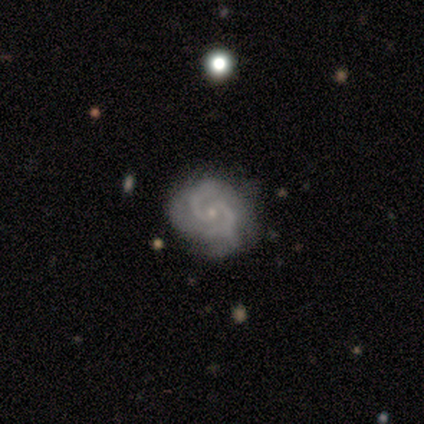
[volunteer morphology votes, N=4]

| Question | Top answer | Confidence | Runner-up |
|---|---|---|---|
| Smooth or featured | featured or disk | 75% | smooth (25%) |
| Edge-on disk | no | 100% | — |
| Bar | strong | 33% | tied: weak (33%), no (33%) |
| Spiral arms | yes | 100% | — |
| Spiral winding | medium | 67% | tight (33%) |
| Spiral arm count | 2 | 67% | 3 (33%) |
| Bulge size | moderate | 67% | small (33%) |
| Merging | none | 25% | tied: minor disturbance (25%), major disturbance (25%), merger (25%) |